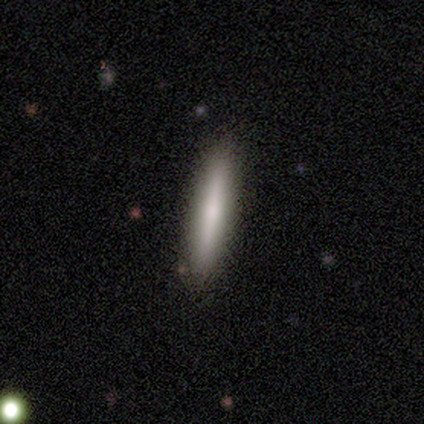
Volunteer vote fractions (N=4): Smooth or featured?
  - smooth: 50% * (tied)
  - featured or disk: 50% * (tied)
  - star or artifact: 0%
How rounded?
  - cigar-shaped: 100% *
  - round: 0%
  - in between: 0%
Merging?
  - none: 100% *
  - minor disturbance: 0%
  - major disturbance: 0%
  - merger: 0%